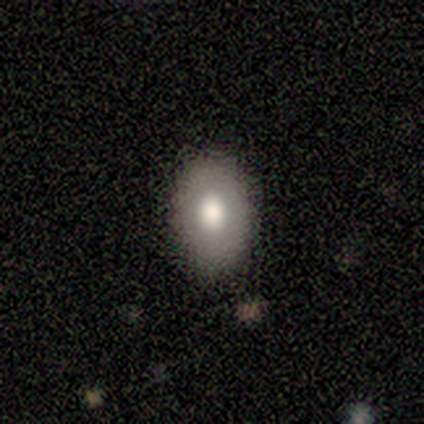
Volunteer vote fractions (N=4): Smooth or featured: smooth — 100%
How rounded: in between — 75% (round — 25%)
Merging: none — 75% (minor disturbance — 25%)